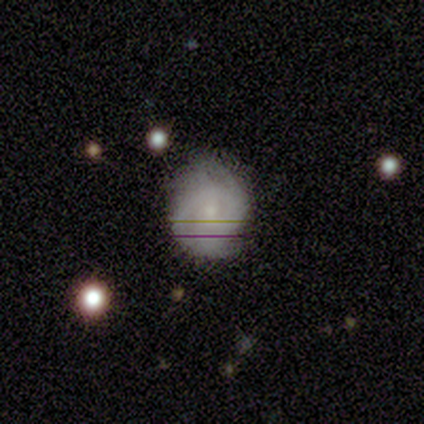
Morphology: type=featured or disk (75%); edge-on=no (100%); bar=no (83%); spiral arms=yes (83%); winding=medium (60%); arm count=3 (40%); bulge=small (83%); merging=none (75%).